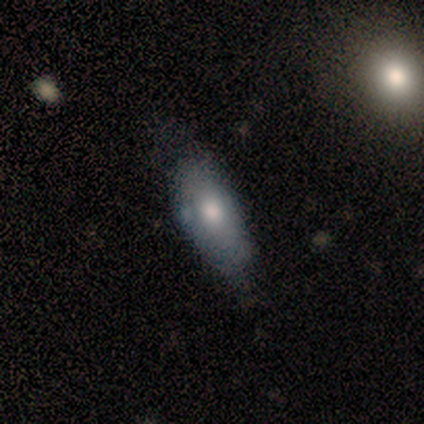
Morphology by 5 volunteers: This is clearly a smooth galaxy (100%). How rounded: clearly in between (80%). Merging: clearly none (100%).